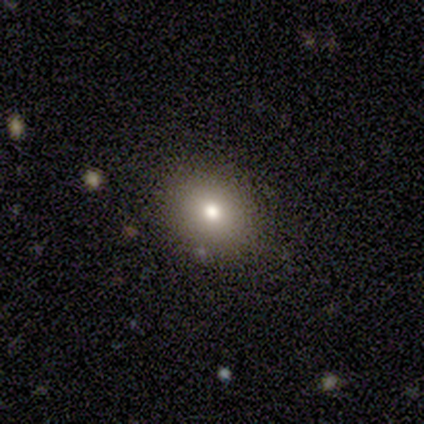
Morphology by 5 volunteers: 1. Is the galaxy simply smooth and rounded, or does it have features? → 100% smooth, 0% featured or disk, 0% star or artifact.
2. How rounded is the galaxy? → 60% in between, 40% round, 0% cigar-shaped.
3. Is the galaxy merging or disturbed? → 100% none, 0% minor disturbance, 0% major disturbance, 0% merger.